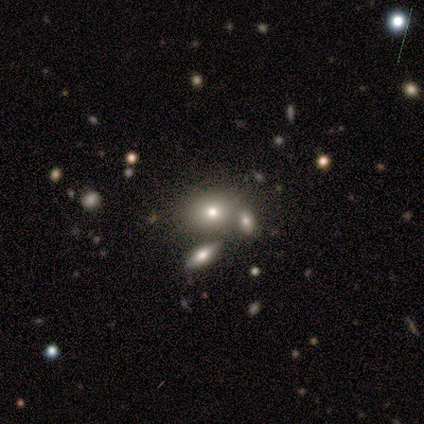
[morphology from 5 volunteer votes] Smooth or featured? 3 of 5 (60%) said smooth. How rounded? 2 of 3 (67%) said round. Merging? 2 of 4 (50%, tied with merger) said none.